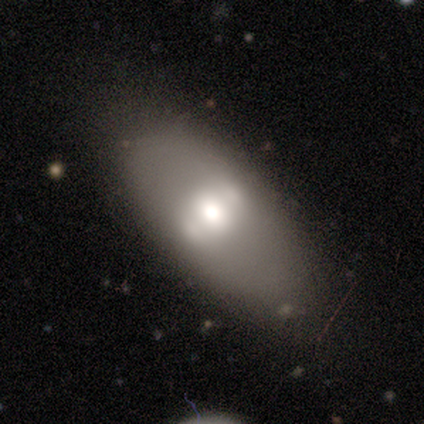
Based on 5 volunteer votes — This is likely a smooth galaxy (60%). How rounded: likely in between (67%). Merging: likely minor disturbance (60%).